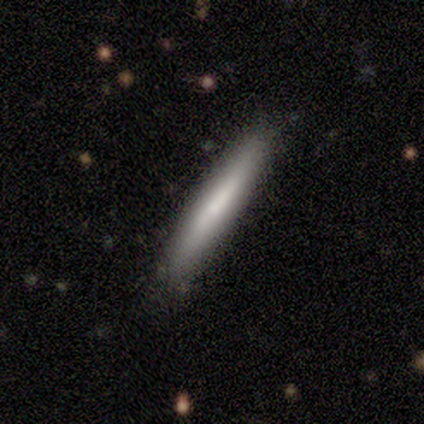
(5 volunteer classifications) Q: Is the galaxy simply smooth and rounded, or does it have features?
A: smooth — 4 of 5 (80%).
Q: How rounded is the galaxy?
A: cigar-shaped — 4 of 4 (100%).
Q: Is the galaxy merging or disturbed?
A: none — 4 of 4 (100%).